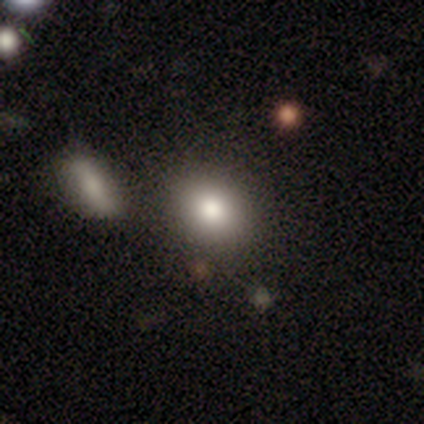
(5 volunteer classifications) This is likely a smooth galaxy (60%). How rounded: likely in between (67%). Merging: clearly none (100%).